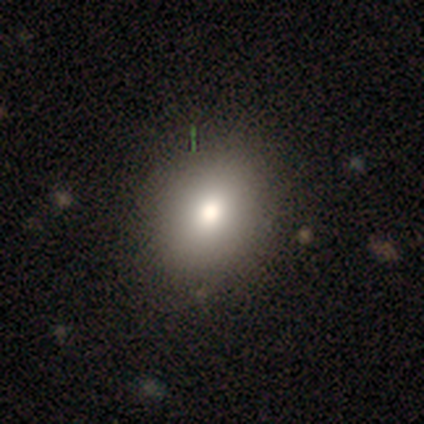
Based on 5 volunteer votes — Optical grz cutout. It shows a smooth galaxy with no disk features (100%) that is round (100%). Merging: none (100%).